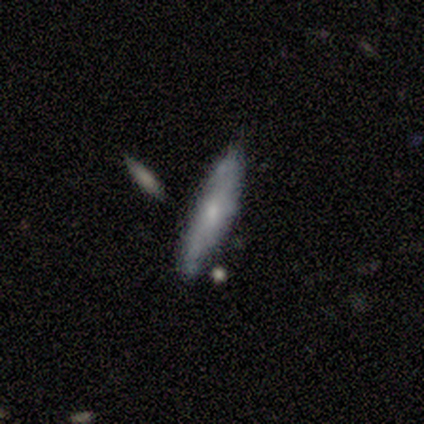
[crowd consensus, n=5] smooth 60%, featured or disk 40%, star or artifact 0%. Down the decision tree: how rounded — cigar-shaped (100%); merging — none (80%).